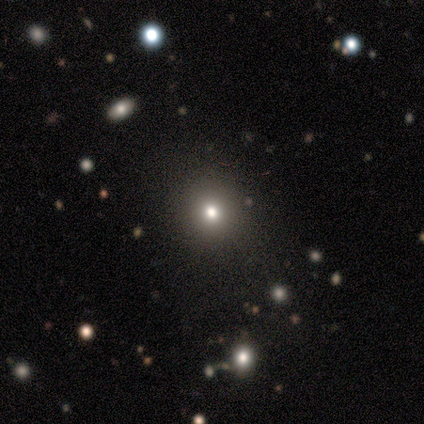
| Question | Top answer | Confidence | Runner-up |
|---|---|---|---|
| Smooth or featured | smooth | 60% | star or artifact (40%) |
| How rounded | round | 100% | — |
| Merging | none | 67% | major disturbance (33%) |